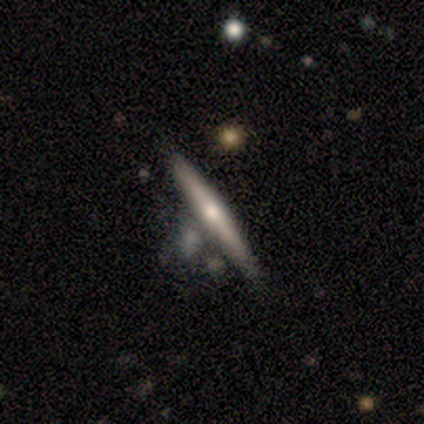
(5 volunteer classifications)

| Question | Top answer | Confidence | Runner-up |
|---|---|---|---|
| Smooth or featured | smooth | 60% | featured or disk (40%) |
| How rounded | cigar-shaped | 100% | — |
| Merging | none | 60% | minor disturbance (20%) |